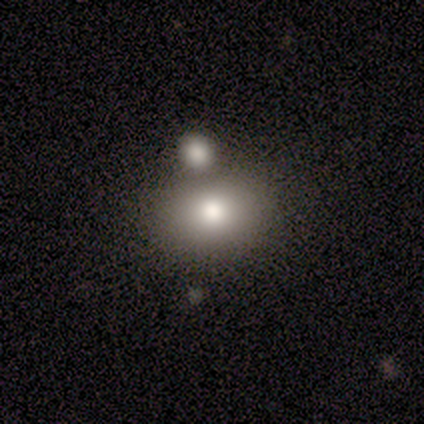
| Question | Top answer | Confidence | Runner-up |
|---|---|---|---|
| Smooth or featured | smooth | 100% | — |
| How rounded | in between | 80% | cigar-shaped (20%) |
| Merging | none | 60% | merger (40%) |